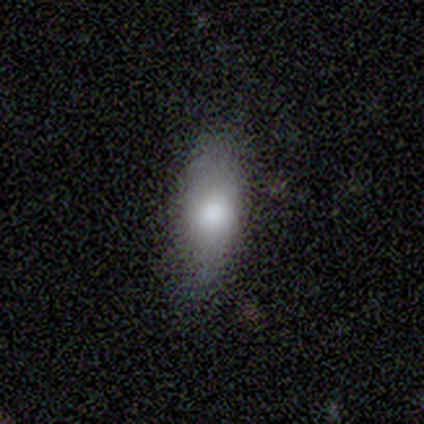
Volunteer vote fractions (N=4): smooth 75%, featured or disk 25%, star or artifact 0%. Down the decision tree: how rounded — in between (100%); merging — none (75%).